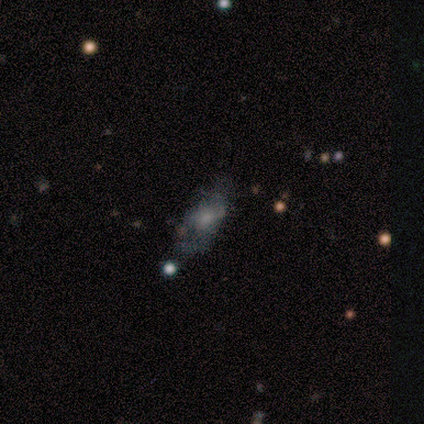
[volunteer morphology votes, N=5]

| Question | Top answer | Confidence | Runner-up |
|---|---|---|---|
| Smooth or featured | smooth | 60% | featured or disk (40%) |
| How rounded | in between | 67% | cigar-shaped (33%) |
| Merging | none | 60% | major disturbance (40%) |